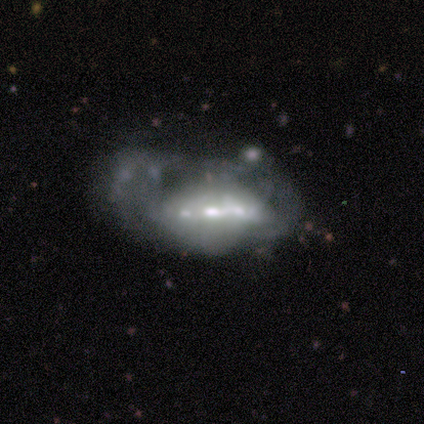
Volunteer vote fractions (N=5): Overall: featured or disk (80%). Edge-on disk: no (75%). Bar: no (100%). Spiral arms: no (100%). Bulge size: moderate (100%). Merging: none (60%; minor disturbance 20%).